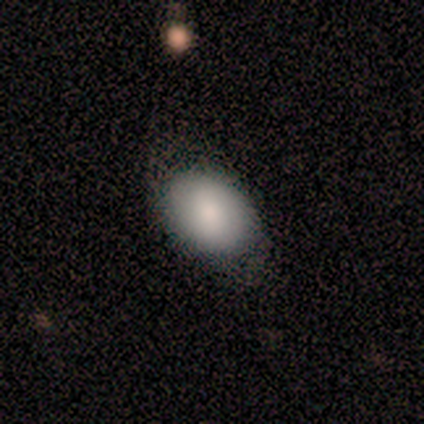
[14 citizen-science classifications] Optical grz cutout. It shows a smooth galaxy with no disk features (64%) that is in between round and cigar-shaped (89%). Merging: none (64%).